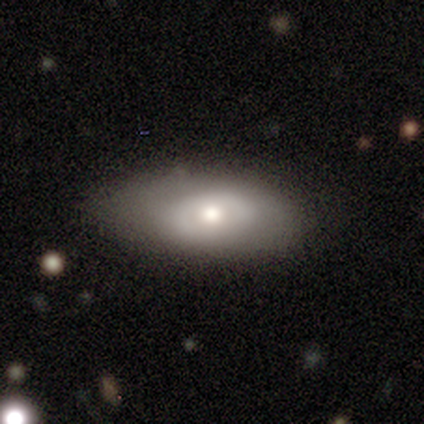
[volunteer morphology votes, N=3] Smooth or featured? 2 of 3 (67%) said smooth. How rounded? 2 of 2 (100%) said in between. Merging? 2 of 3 (67%) said none.